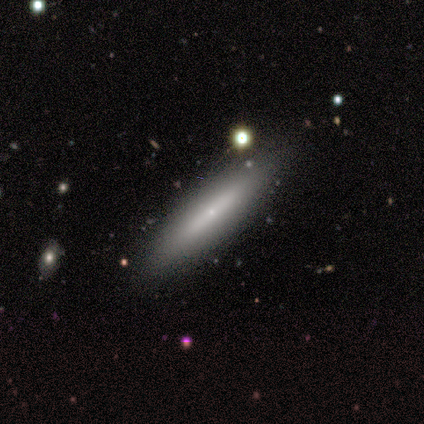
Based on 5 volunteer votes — Overall: smooth (60%; featured or disk 40%). How rounded: cigar-shaped (67%; in between 33%). Merging: none (80%).